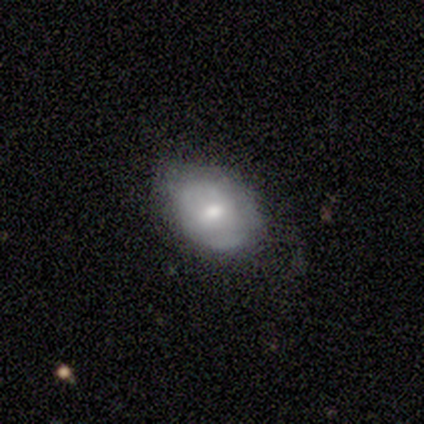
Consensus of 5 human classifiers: Smooth or featured? 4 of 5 (80%) said smooth. How rounded? 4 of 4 (100%) said in between. Merging? 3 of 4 (75%) said none.